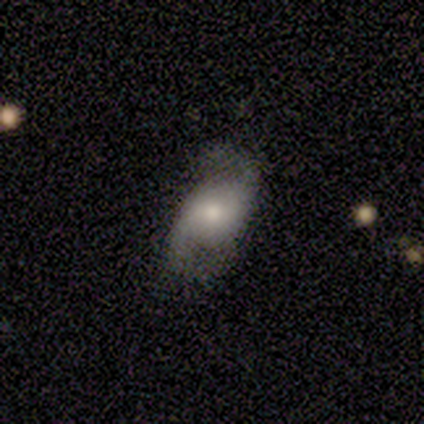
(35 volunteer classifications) Smooth or featured: featured or disk — 63% (smooth — 20%)
Edge-on disk: no — 91% (yes — 9%)
Bar: weak — 55% (no — 40%)
Spiral arms: yes — 85% (no — 15%)
Spiral winding: loose — 82% (medium — 18%)
Spiral arm count: 2 — 94% (can't tell — 6%)
Bulge size: small — 45% (moderate — 35%)
Merging: none — 48% (minor disturbance — 28%)